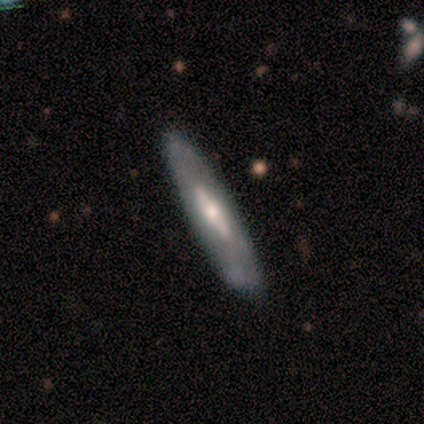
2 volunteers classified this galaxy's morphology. Smooth or featured? featured or disk (100%)
Edge-on disk? yes (100%)
Edge-on bulge? none (100%)
Merging? none (100%)